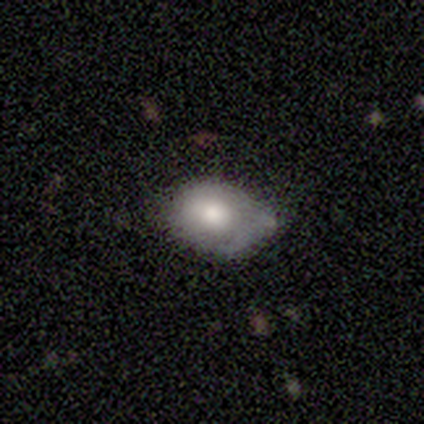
This appears to be a smooth galaxy with no disk features (60%) that is in between round and cigar-shaped (67%). Merging: minor disturbance (80%).